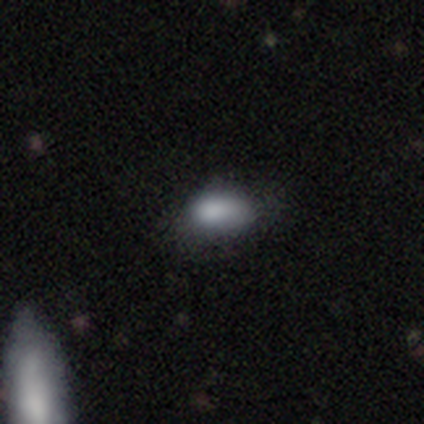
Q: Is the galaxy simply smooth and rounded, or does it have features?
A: smooth — 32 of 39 (82%).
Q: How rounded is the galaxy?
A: in between — 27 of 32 (84%).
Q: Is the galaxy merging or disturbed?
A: minor disturbance — 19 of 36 (53%).